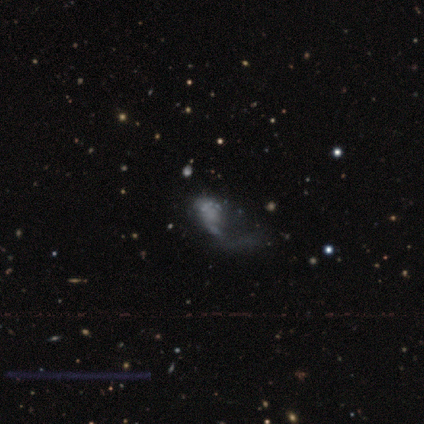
smooth-or-featured: featured or disk: 58% | smooth: 26% | star or artifact: 16%
  disk-edge-on: no: 100% | yes: 0%
    bar: no: 100% | strong: 0% | weak: 0%
    has-spiral-arms: no: 82% | yes: 18%
    bulge-size: none: 95% | large: 5% | dominant: 0% | moderate: 0% | small: 0%
  merging: major disturbance: 69% | none: 19% | minor disturbance: 6% | merger: 6%